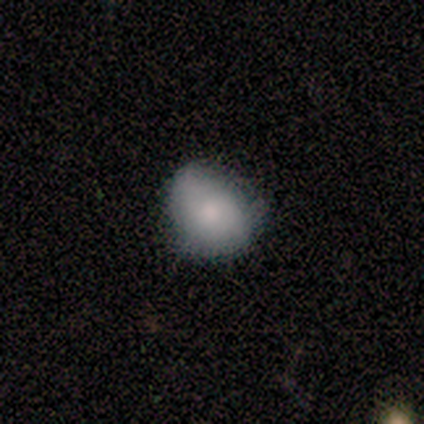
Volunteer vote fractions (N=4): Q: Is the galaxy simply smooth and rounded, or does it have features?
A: smooth — 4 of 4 (100%).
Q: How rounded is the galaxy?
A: round — 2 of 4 (50%, tied with in between).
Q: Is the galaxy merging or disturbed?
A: none — 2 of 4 (50%, tied with minor disturbance).